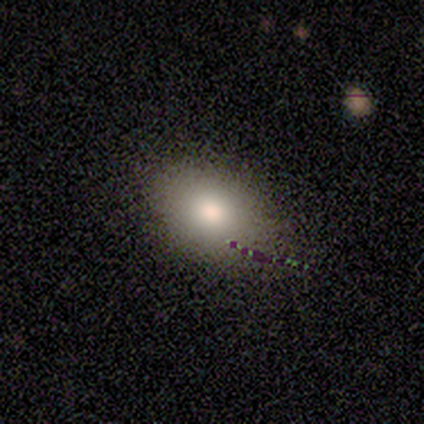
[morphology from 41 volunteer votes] Smooth or featured? smooth (85%)
How rounded? in between (83%)
Merging? none (59%)